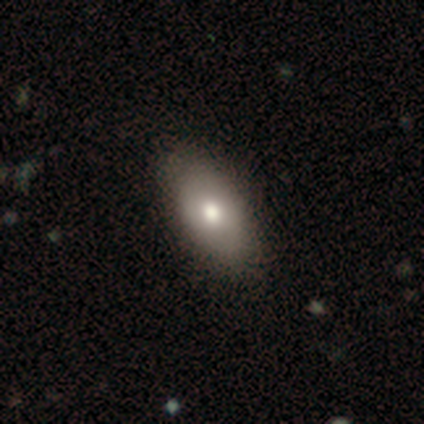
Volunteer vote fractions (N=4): Smooth or featured: smooth — 75% (star or artifact — 25%)
How rounded: in between — 100%
Merging: none — 100%